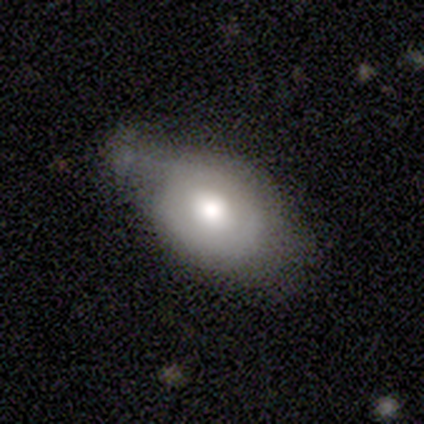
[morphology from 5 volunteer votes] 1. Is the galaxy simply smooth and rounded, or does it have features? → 80% smooth, 20% featured or disk, 0% star or artifact.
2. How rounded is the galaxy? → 100% in between, 0% round, 0% cigar-shaped.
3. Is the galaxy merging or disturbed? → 60% minor disturbance, 40% none, 0% major disturbance, 0% merger.